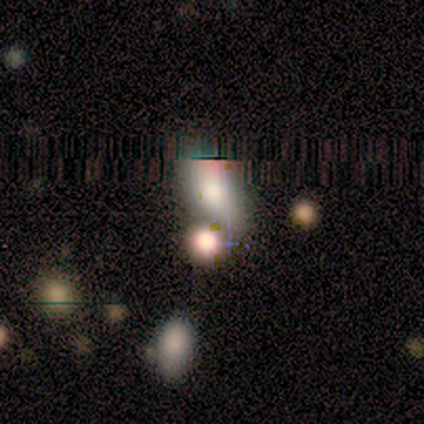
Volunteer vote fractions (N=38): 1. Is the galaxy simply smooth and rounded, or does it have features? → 53% star or artifact, 37% smooth, 11% featured or disk.